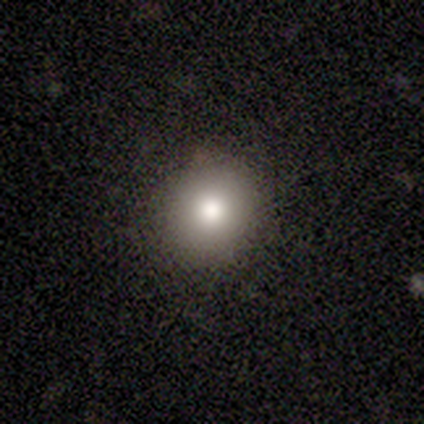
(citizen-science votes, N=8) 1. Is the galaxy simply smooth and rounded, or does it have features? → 88% smooth, 12% featured or disk, 0% star or artifact.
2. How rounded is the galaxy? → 71% round, 29% in between, 0% cigar-shaped.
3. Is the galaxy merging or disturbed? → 62% none, 25% minor disturbance, 12% major disturbance, 0% merger.